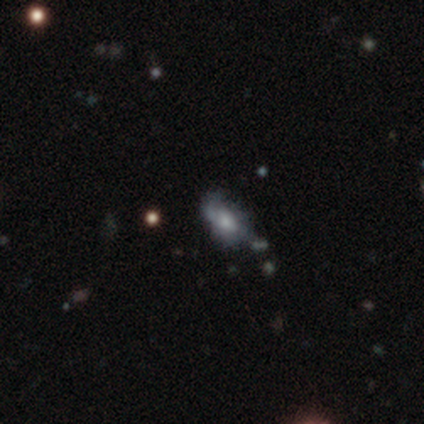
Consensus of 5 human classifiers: Q: Smooth or featured?
A: featured or disk (60%); runner-up: star or artifact (40%)
Q: Edge-on disk?
A: no (100%)
Q: Bar?
A: no (100%)
Q: Spiral arms?
A: yes (67%); runner-up: no (33%)
Q: Spiral winding?
A: medium (50%); tied with: loose (50%)
Q: Spiral arm count?
A: 1 (50%); tied with: 2 (50%)
Q: Bulge size?
A: small (67%); runner-up: moderate (33%)
Q: Merging?
A: none (33%); tied with: minor disturbance (33%); major disturbance (33%)